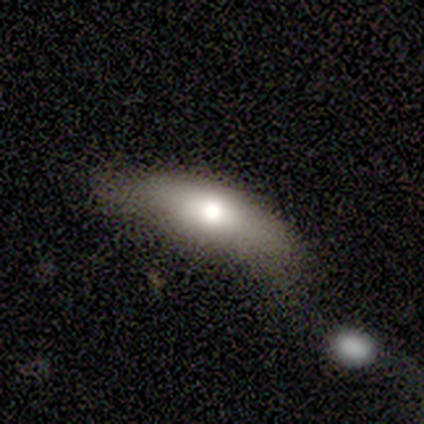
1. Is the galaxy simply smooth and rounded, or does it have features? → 60% featured or disk, 40% smooth, 0% star or artifact.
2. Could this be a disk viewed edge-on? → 67% no, 33% yes.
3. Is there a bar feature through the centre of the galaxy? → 100% no, 0% strong, 0% weak.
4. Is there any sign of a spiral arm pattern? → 100% no, 0% yes.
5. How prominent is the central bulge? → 100% moderate, 0% dominant, 0% large, 0% small, 0% none.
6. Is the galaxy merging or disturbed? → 40% major disturbance, 20% none, 20% minor disturbance, 20% merger.